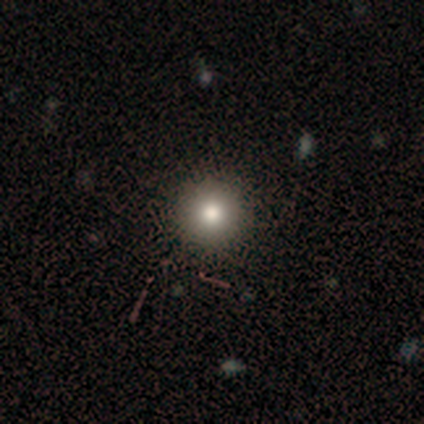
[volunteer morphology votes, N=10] smooth_or_featured: smooth (p=0.70) [alt: featured or disk p=0.20]
how_rounded: round (p=1.00)
merging: none (p=0.89) [alt: major disturbance p=0.11]